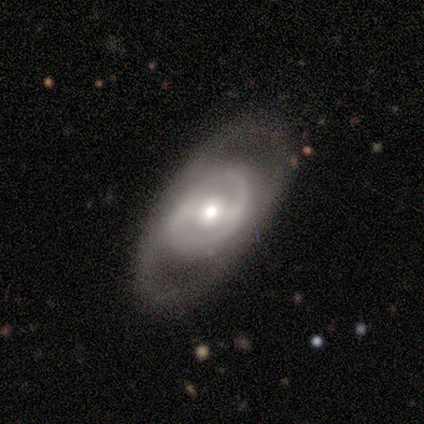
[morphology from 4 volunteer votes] Volunteers were most divided on "spiral arms" (2-way tie): yes: 50%, no: 50%; "spiral winding" (2-way tie): tight: 50%, medium: 50%, loose: 0%; "bulge size" (2-way tie): moderate: 50%, small: 50%, dominant: 0%, large: 0%, none: 0%. More confident: smooth or featured — featured or disk (100%); edge-on disk — no (100%); spiral arm count — 2 (100%); merging — none (100%); bar — strong (75%).